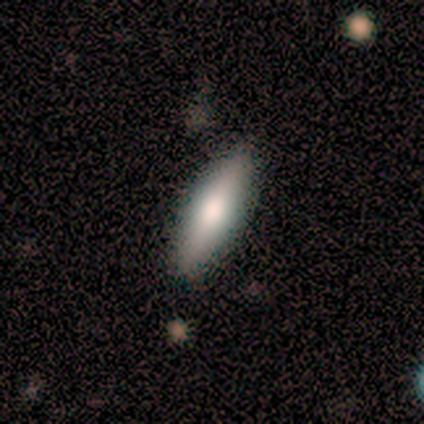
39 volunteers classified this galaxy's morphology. smooth 67%, featured or disk 33%, star or artifact 0%. Down the decision tree: how rounded — cigar-shaped (54%); merging — none (87%).